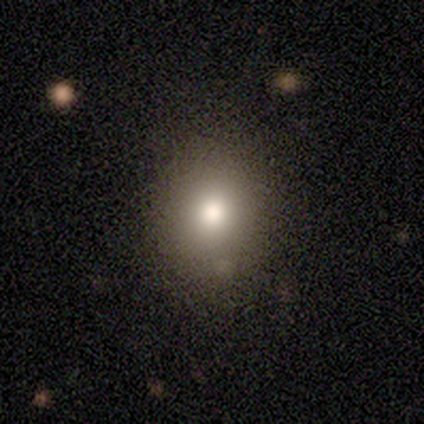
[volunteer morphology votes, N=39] This is likely a smooth galaxy (79%). How rounded: likely round (74%). Merging: possibly none (57%).